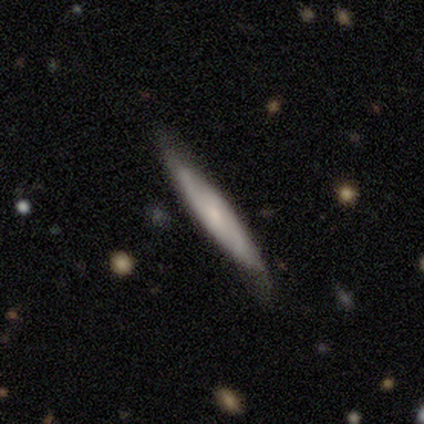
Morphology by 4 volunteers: type=smooth (75%); roundness=cigar-shaped (100%); merging=none (50%, tied with minor disturbance).